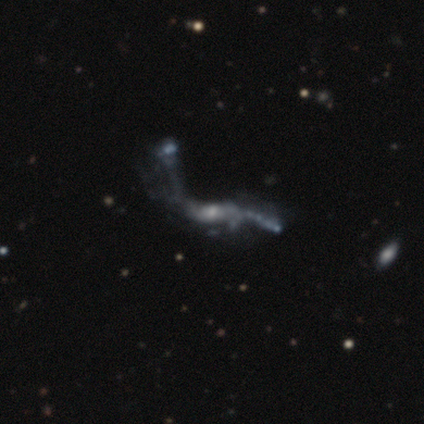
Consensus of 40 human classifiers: Smooth or featured?
  - featured or disk: 70% *
  - star or artifact: 18%
  - smooth: 12%
Edge-on disk?
  - no: 86% *
  - yes: 14%
Bar?
  - no: 67% *
  - weak: 21%
  - strong: 12%
Spiral arms?
  - yes: 67% *
  - no: 33%
Spiral winding?
  - loose: 100% *
  - tight: 0%
  - medium: 0%
Spiral arm count?
  - 2: 69% *
  - can't tell: 19%
  - 1: 12%
  - 3: 0%
  - 4: 0%
  - more than 4: 0%
Bulge size?
  - small: 71% *
  - moderate: 17%
  - none: 8%
  - large: 4%
  - dominant: 0%
Merging?
  - merger: 39% *
  - major disturbance: 36%
  - none: 24%
  - minor disturbance: 0%